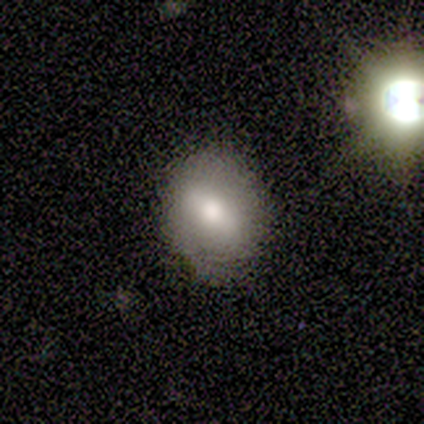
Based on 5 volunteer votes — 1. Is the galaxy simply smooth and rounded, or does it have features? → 100% smooth, 0% featured or disk, 0% star or artifact.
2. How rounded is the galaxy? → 80% round, 20% in between, 0% cigar-shaped.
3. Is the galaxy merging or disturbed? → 100% none, 0% minor disturbance, 0% major disturbance, 0% merger.